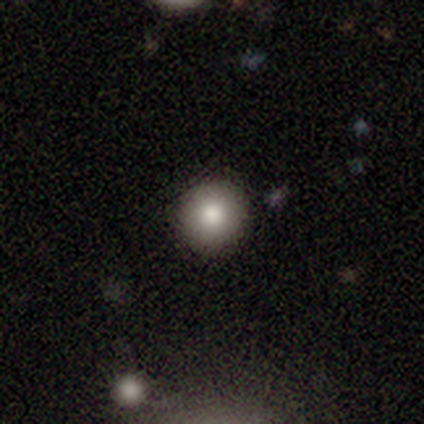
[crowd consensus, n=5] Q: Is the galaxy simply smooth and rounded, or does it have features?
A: smooth — 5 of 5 (100%).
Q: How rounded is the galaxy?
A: round — 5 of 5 (100%).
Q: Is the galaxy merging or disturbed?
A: none — 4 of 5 (80%).